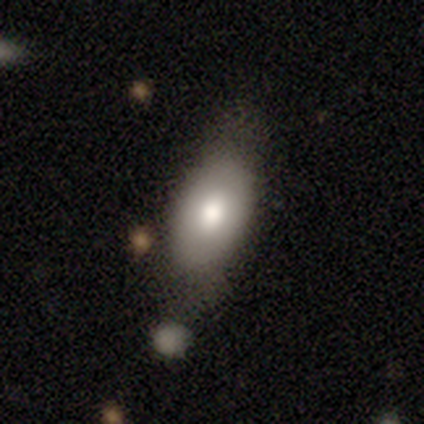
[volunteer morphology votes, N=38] smooth-or-featured: smooth: 84% | featured or disk: 13% | star or artifact: 3%
  how-rounded: in between: 94% | round: 3% | cigar-shaped: 3%
  merging: none: 59% | merger: 16% | minor disturbance: 11% | major disturbance: 3%